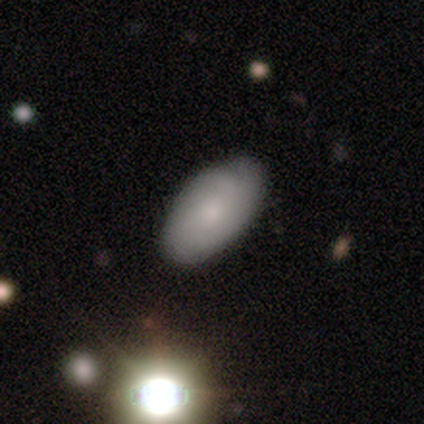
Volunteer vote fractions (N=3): smooth_or_featured: smooth (p=0.67) [alt: featured or disk p=0.33]
how_rounded: in between (p=1.00)
merging: none (p=0.67) [alt: minor disturbance p=0.33]